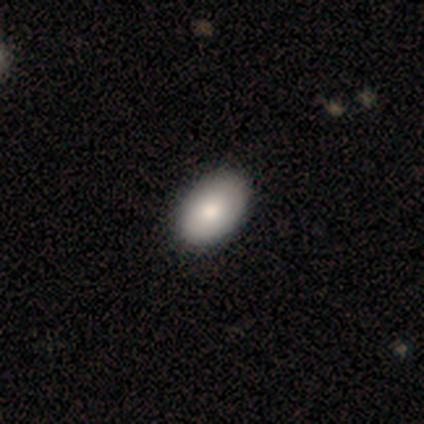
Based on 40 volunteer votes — Volunteers were most divided on "smooth or featured": smooth: 78%, featured or disk: 15%, star or artifact: 8%. More confident: how rounded — in between (97%); merging — none (70%).